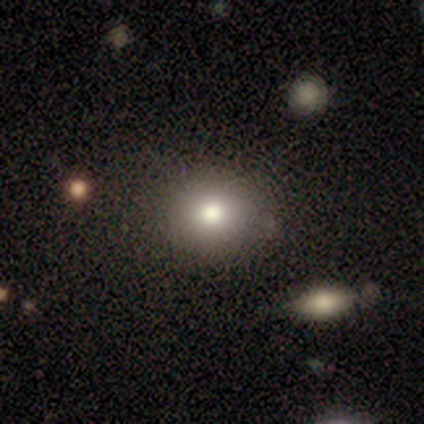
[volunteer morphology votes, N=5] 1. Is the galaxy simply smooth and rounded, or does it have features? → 80% smooth, 20% star or artifact, 0% featured or disk.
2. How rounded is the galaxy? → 75% round, 25% in between, 0% cigar-shaped.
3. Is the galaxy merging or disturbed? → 100% none, 0% minor disturbance, 0% major disturbance, 0% merger.